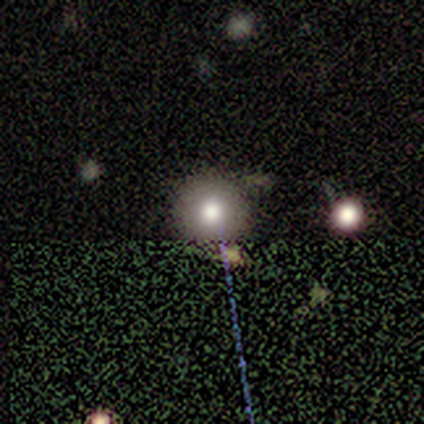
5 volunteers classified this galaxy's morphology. A smooth galaxy with no disk features (60%) that is round (100%).

Vote fractions:
- Smooth or featured? smooth: 60% / featured or disk: 20% / star or artifact: 20%
- How rounded? round: 100% / in between: 0% / cigar-shaped: 0%
- Merging? none: 100% / minor disturbance: 0% / major disturbance: 0% / merger: 0%